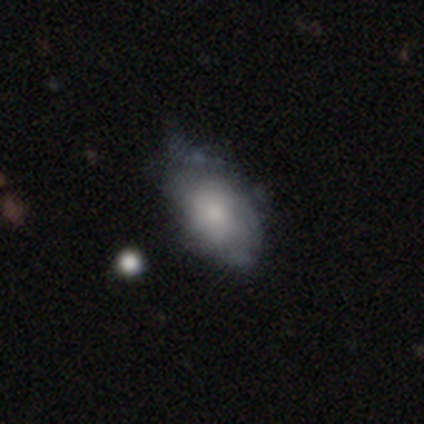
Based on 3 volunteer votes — Overall: smooth (100%). How rounded: in between (100%). Merging: none (33%, tied with minor disturbance and major disturbance).